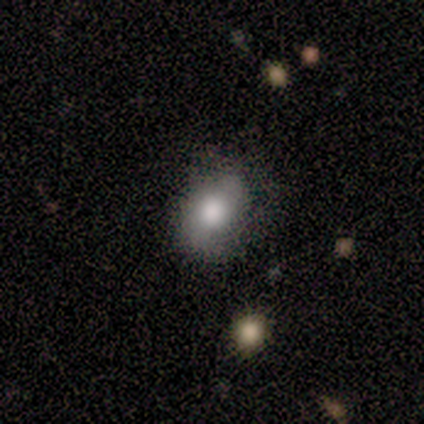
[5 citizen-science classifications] Smooth or featured: featured or disk — 40% (tied with star or artifact — 40%)
Edge-on disk: no — 100%
Bar: no — 100%
Spiral arms: yes — 50% (tied with no — 50%)
Spiral winding: medium — 100%
Spiral arm count: 2 — 100%
Bulge size: large — 50% (tied with none — 50%)
Merging: none — 67% (major disturbance — 33%)